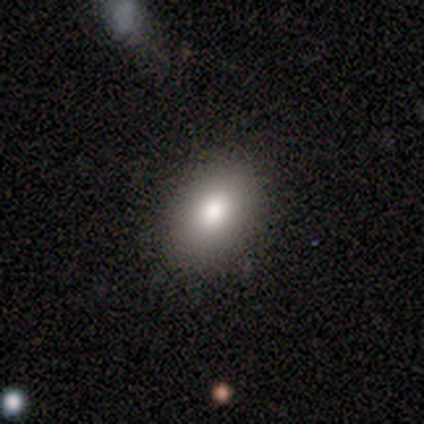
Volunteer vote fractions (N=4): smooth 100%, featured or disk 0%, star or artifact 0%. Down the decision tree: how rounded — round (50%, tied with in between); merging — none (100%).